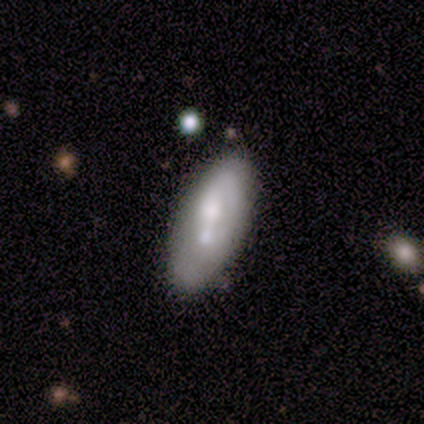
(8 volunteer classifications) A featured or disk galaxy (88%) with a weak bar (57%), no spiral arms (71%) and a small central bulge (86%).

Vote fractions:
- Smooth or featured? featured or disk: 88% / star or artifact: 12% / smooth: 0%
- Edge-on disk? no: 100% / yes: 0%
- Bar? weak: 57% / no: 43% / strong: 0%
- Spiral arms? no: 71% / yes: 29%
- Bulge size? small: 86% / moderate: 14% / dominant: 0% / large: 0% / none: 0%
- Merging? none: 71% / minor disturbance: 14% / merger: 14% / major disturbance: 0%